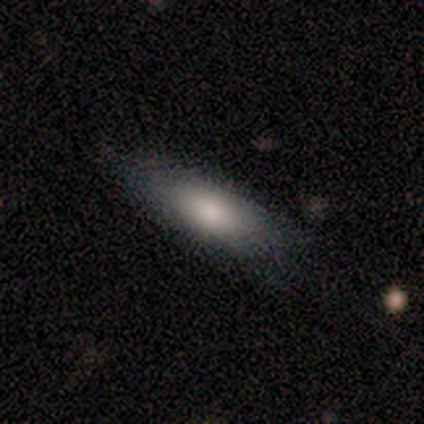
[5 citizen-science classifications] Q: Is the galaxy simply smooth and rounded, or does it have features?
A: smooth — 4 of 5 (80%).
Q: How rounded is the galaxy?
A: in between — 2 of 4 (50%, tied with cigar-shaped).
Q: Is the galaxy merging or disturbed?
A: none — 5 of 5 (100%).